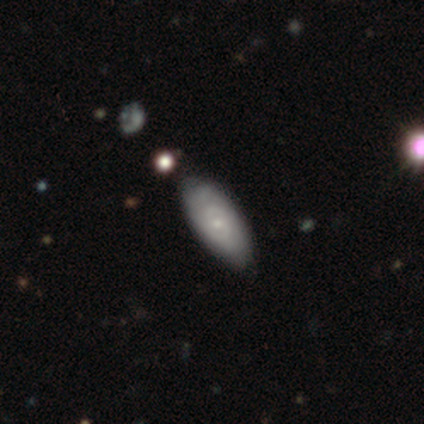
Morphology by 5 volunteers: Smooth or featured? featured or disk (80%)
Edge-on disk? no (75%)
Bar? no (100%)
Spiral arms? yes (67%)
Spiral winding? tight (100%)
Spiral arm count? can't tell (100%)
Bulge size? small (100%)
Merging? none (40%, tied with minor disturbance)